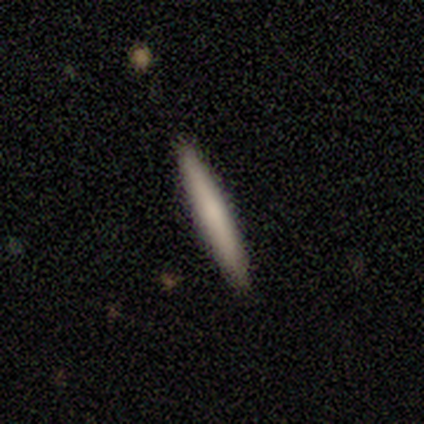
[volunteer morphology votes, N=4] This is clearly a smooth galaxy (100%). How rounded: clearly cigar-shaped (100%). Merging: clearly none (100%).